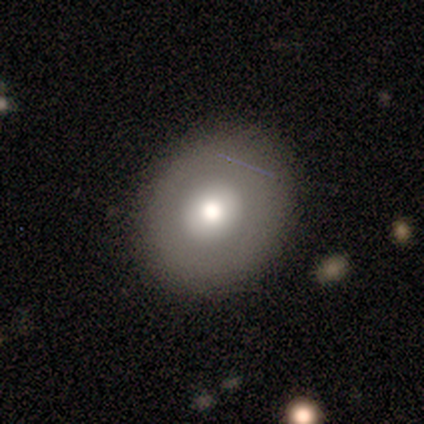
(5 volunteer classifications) Smooth or featured?
  - featured or disk: 60% *
  - smooth: 40%
  - star or artifact: 0%
Edge-on disk?
  - no: 67% *
  - yes: 33%
Bar?
  - no: 100% *
  - strong: 0%
  - weak: 0%
Spiral arms?
  - no: 100% *
  - yes: 0%
Bulge size?
  - large: 100% *
  - dominant: 0%
  - moderate: 0%
  - small: 0%
  - none: 0%
Merging?
  - none: 60% *
  - minor disturbance: 40%
  - major disturbance: 0%
  - merger: 0%